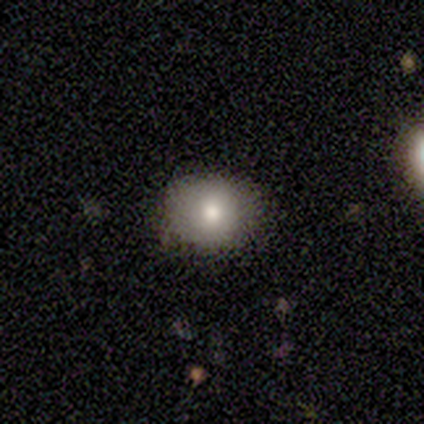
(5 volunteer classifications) This is clearly a smooth galaxy (100%). How rounded: clearly round (100%). Merging: clearly none (80%).